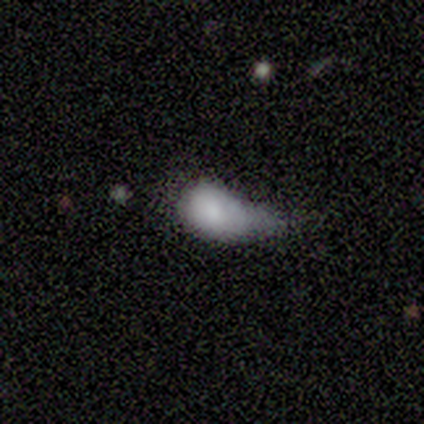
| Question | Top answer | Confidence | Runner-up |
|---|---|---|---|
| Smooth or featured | smooth | 60% | star or artifact (40%) |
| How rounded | in between | 100% | — |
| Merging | minor disturbance | 67% | merger (33%) |